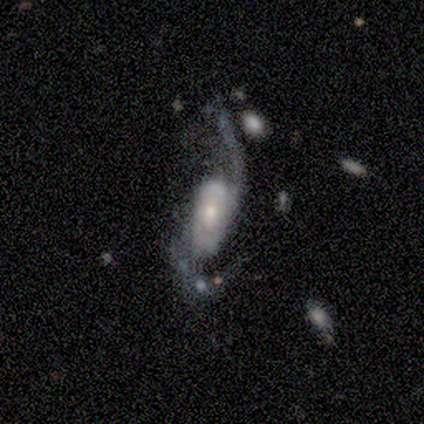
Smooth or featured: featured or disk — 80% (smooth — 20%)
Edge-on disk: no — 100%
Bar: weak — 50% (tied with no — 50%)
Spiral arms: yes — 100%
Spiral winding: loose — 100%
Spiral arm count: 2 — 100%
Bulge size: moderate — 50% (large — 25%)
Merging: minor disturbance — 40% (tied with major disturbance — 40%)